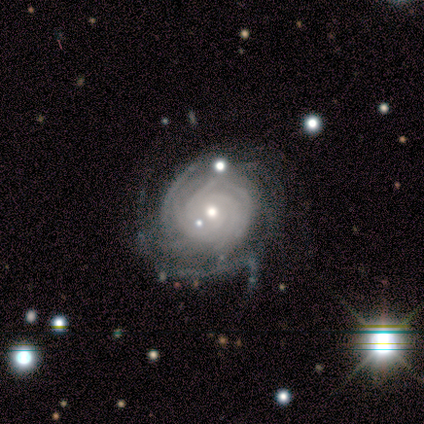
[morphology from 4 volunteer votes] This is clearly a featured or disk galaxy (100%). It is clearly not viewed edge-on (100%). Bar: likely no (75%). Spiral arm pattern: clearly yes (100%). Spiral arm count: possibly 4 (50%). Spiral winding: clearly tight (100%). Central bulge: possibly small (50%). Merging: possibly none (50%, tied with minor disturbance).